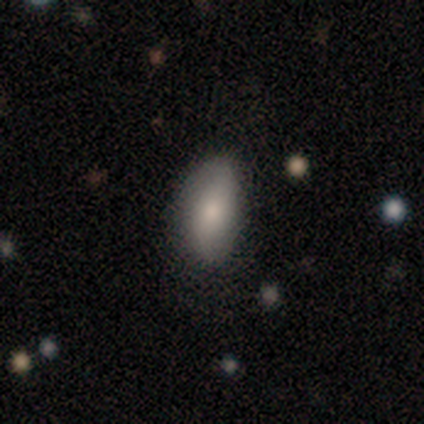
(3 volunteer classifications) Smooth or featured?
  - smooth: 100% *
  - featured or disk: 0%
  - star or artifact: 0%
How rounded?
  - in between: 100% *
  - round: 0%
  - cigar-shaped: 0%
Merging?
  - none: 67% *
  - merger: 33%
  - minor disturbance: 0%
  - major disturbance: 0%